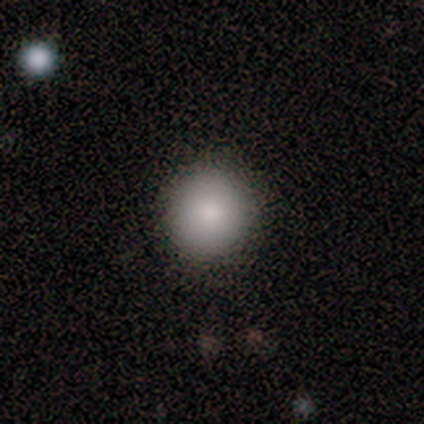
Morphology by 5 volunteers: A smooth galaxy with no disk features (100%) that is round (100%). Merging: none (100%).